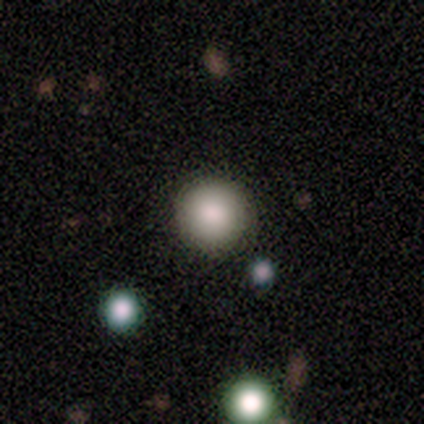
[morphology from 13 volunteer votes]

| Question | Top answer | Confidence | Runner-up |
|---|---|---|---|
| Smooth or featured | smooth | 69% | star or artifact (23%) |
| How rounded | round | 100% | — |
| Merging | none | 90% | minor disturbance (10%) |